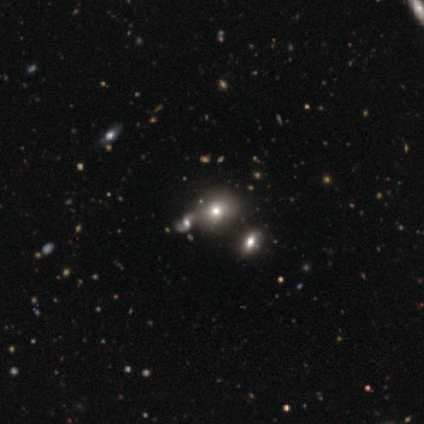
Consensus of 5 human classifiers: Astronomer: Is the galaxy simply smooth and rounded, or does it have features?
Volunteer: smooth — 80%.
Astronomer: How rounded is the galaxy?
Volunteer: round — 100%.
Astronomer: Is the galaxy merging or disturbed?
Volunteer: merger — 60%.